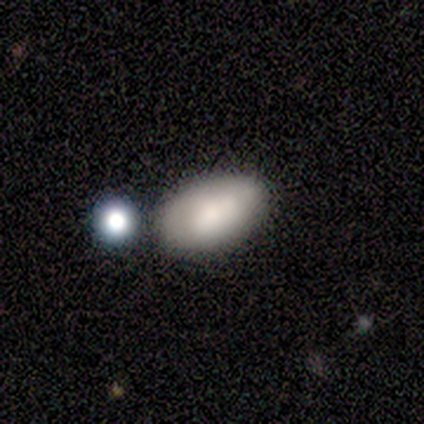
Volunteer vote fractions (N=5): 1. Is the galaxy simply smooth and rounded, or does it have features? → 100% smooth, 0% featured or disk, 0% star or artifact.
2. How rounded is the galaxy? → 100% in between, 0% round, 0% cigar-shaped.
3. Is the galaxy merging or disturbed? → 100% none, 0% minor disturbance, 0% major disturbance, 0% merger.